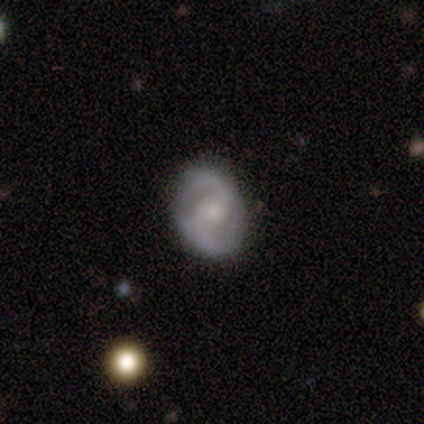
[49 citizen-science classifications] This is clearly a featured or disk galaxy (82%). It is clearly not viewed edge-on (100%). Bar: marginally no (42%). Spiral arm pattern: clearly yes (92%). Spiral arm count: clearly 2 (97%). Spiral winding: marginally medium (41%). Central bulge: possibly moderate (55%). Merging: clearly none (92%).